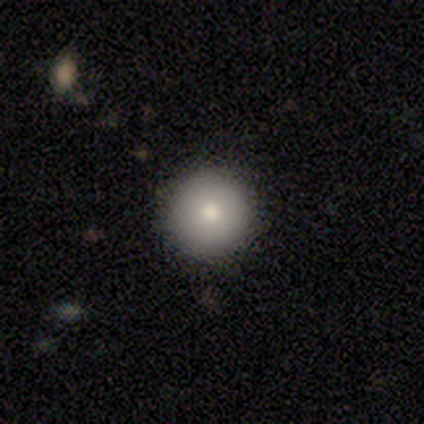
This is clearly a smooth galaxy (100%). How rounded: clearly round (100%). Merging: clearly none (100%).